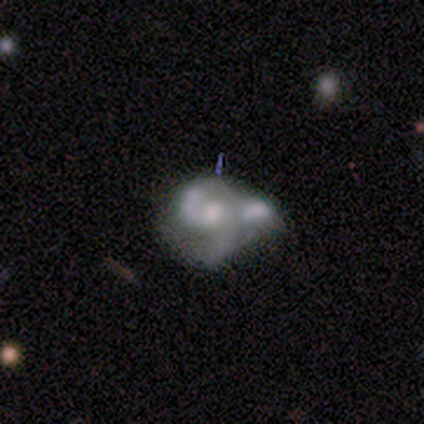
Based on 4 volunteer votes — featured or disk 75%, smooth 25%, star or artifact 0%. Down the decision tree: edge-on disk — no (100%); bar — weak (67%); spiral arms — yes (100%); spiral arm count — 2 (67%); spiral winding — loose (67%); bulge size — small (67%); merging — merger (75%).